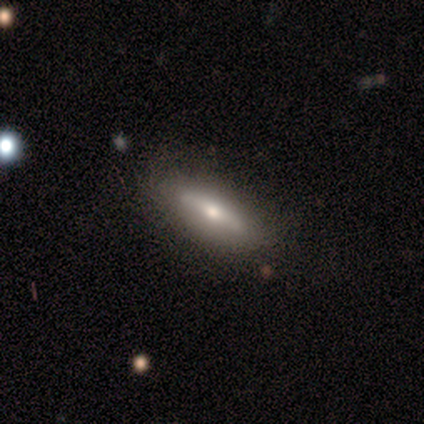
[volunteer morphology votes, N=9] smooth 78%, featured or disk 22%, star or artifact 0%. Down the decision tree: how rounded — cigar-shaped (57%); merging — none (56%).